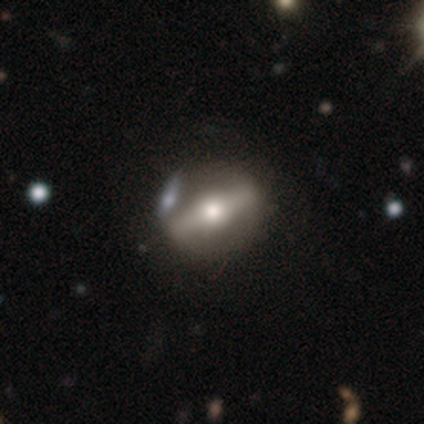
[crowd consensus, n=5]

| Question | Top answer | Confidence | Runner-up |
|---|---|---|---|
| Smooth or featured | featured or disk | 80% | smooth (20%) |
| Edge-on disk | no | 75% | yes (25%) |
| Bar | strong | 100% | — |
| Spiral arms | no | 100% | — |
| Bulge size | moderate | 100% | — |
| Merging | none | 80% | merger (20%) |